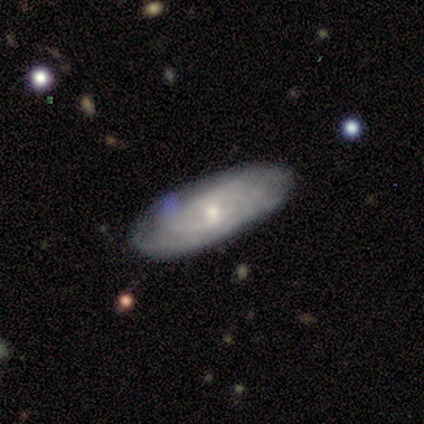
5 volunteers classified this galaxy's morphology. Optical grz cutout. It shows a featured or disk galaxy (100%) with no bar (80%), tight (80%) spiral arms (100%) and a small central bulge (60%). Merging: none (100%).